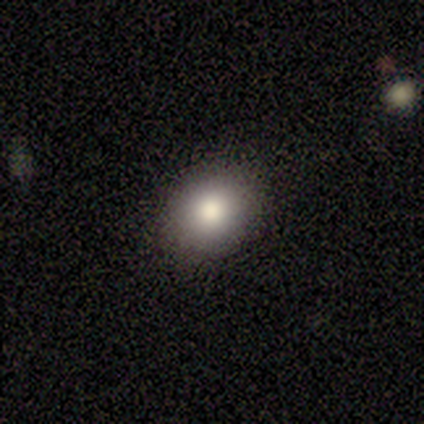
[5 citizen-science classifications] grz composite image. It shows a smooth galaxy with no disk features (80%) that is in between round and cigar-shaped (75%). Merging: none (80%).